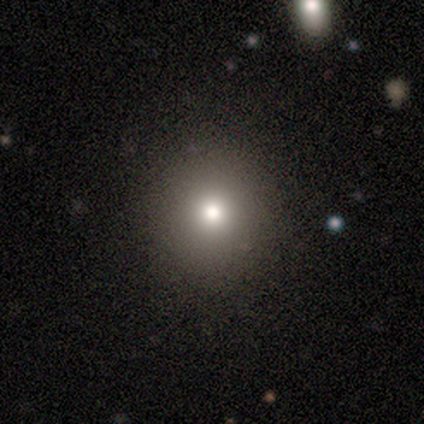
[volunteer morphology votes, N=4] This appears to be a smooth galaxy with no disk features (100%) that is round (100%). Merging: none (100%).